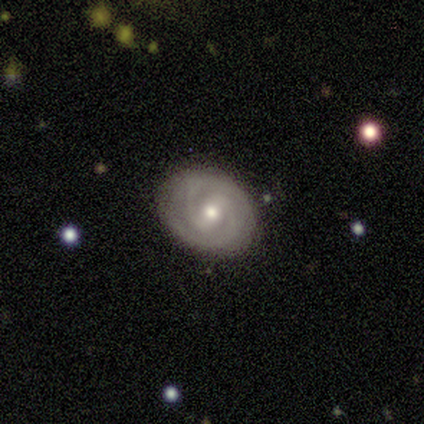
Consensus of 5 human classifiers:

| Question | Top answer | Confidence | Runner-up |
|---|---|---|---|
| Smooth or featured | featured or disk | 100% | — |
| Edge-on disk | no | 100% | — |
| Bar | weak | 60% | strong (20%) |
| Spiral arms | yes | 100% | — |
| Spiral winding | tight | 100% | — |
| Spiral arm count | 2 | 100% | — |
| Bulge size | small | 80% | moderate (20%) |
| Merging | none | 80% | minor disturbance (20%) |